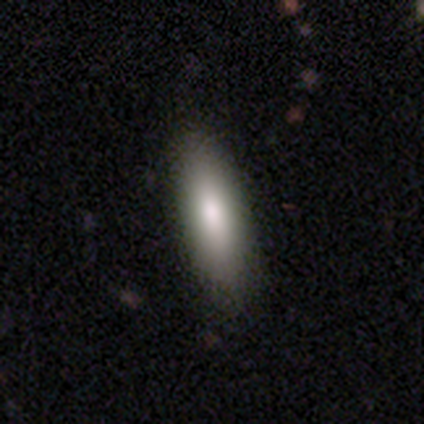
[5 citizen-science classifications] A smooth galaxy with no disk features (60%) that is cigar-shaped (67%).

Vote fractions:
- Smooth or featured? smooth: 60% / featured or disk: 20% / star or artifact: 20%
- How rounded? cigar-shaped: 67% / in between: 33% / round: 0%
- Merging? none: 75% / minor disturbance: 25% / major disturbance: 0% / merger: 0%